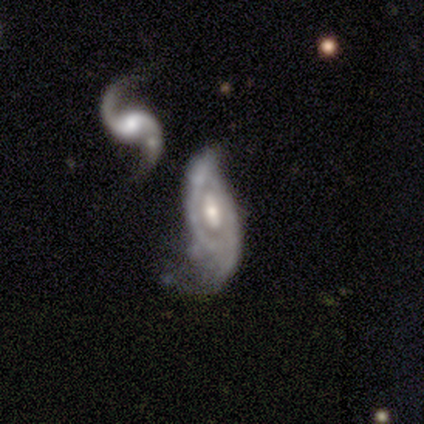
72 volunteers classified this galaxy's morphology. smooth-or-featured: featured or disk: 92% | smooth: 6% | star or artifact: 3%
  disk-edge-on: no: 95% | yes: 5%
    bar: no: 59% | weak: 25% | strong: 16%
    has-spiral-arms: yes: 73% | no: 27%
      spiral-winding: loose: 39% | tight: 33% | medium: 28%
      spiral-arm-count: 2: 74% | can't tell: 22% | 1: 2% | 3: 2% | 4: 0% | more than 4: 0%
    bulge-size: moderate: 59% | small: 25% | large: 11% | none: 3% | dominant: 2%
  merging: major disturbance: 39% | minor disturbance: 26% | none: 19% | merger: 17%